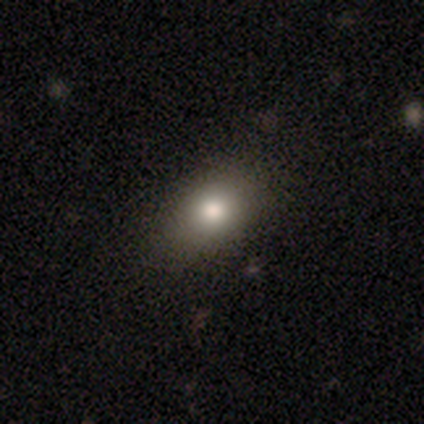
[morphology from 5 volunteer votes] type=smooth (100%); roundness=in between (80%); merging=none (100%).